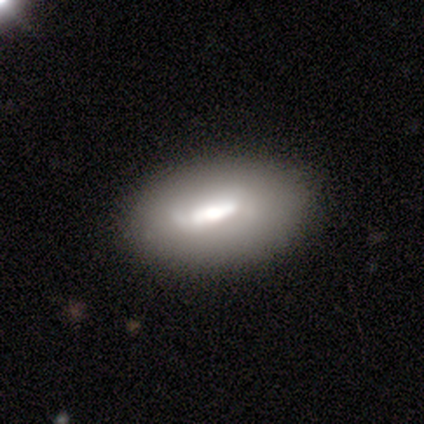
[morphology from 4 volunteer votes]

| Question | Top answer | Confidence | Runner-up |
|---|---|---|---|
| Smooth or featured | smooth | 75% | star or artifact (25%) |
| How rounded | in between | 100% | — |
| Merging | none | 67% | minor disturbance (33%) |